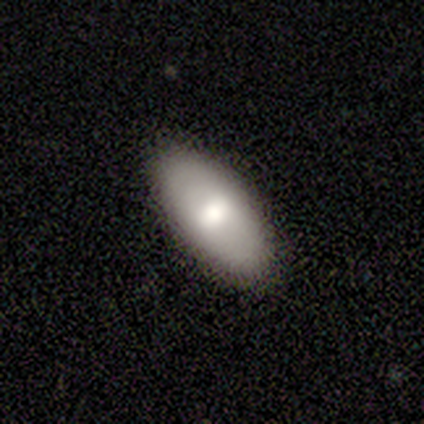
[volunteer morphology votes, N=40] Overall: smooth (65%; featured or disk 28%). How rounded: in between (100%). Merging: none (92%).